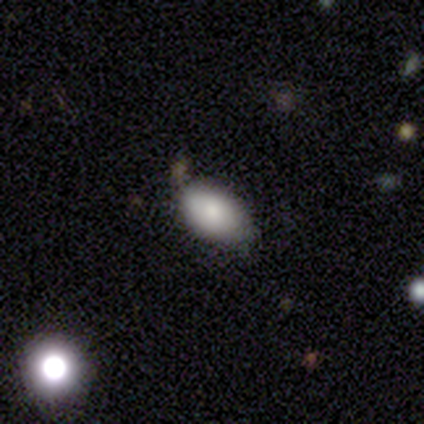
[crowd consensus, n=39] A smooth galaxy with no disk features (77%) that is in between round and cigar-shaped (97%).

Vote fractions:
- Smooth or featured? smooth: 77% / featured or disk: 13% / star or artifact: 10%
- How rounded? in between: 97% / round: 3% / cigar-shaped: 0%
- Merging? none: 77% / minor disturbance: 17% / merger: 6% / major disturbance: 0%